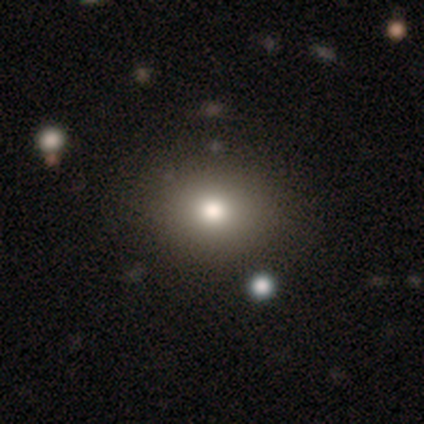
Q: Smooth or featured?
A: smooth (80%); runner-up: star or artifact (12%)
Q: How rounded?
A: round (64%); runner-up: in between (36%)
Q: Merging?
A: none (84%); runner-up: major disturbance (8%)